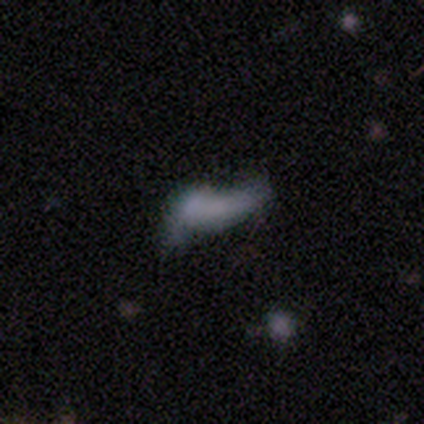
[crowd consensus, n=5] smooth-or-featured: smooth: 60% | featured or disk: 40% | star or artifact: 0%
  how-rounded: cigar-shaped: 67% | in between: 33% | round: 0%
  merging: merger: 60% | none: 40% | minor disturbance: 0% | major disturbance: 0%